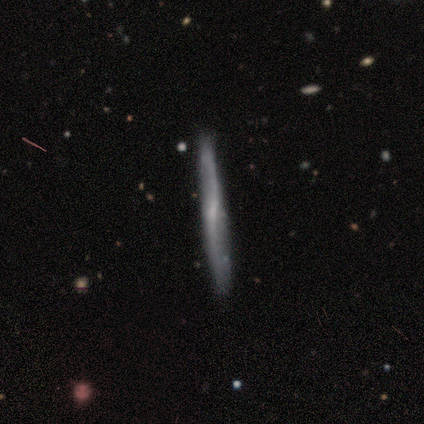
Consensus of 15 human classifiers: smooth-or-featured: featured or disk: 73% | smooth: 27% | star or artifact: 0%
  disk-edge-on: yes: 64% | no: 36%
    edge-on-bulge: rounded: 71% | none: 29% | boxy: 0%
  merging: none: 93% | merger: 7% | minor disturbance: 0% | major disturbance: 0%